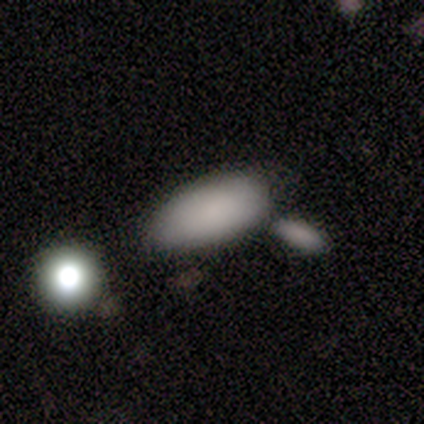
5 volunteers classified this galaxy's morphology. Smooth or featured? smooth (80%)
How rounded? in between (100%)
Merging? none (60%)